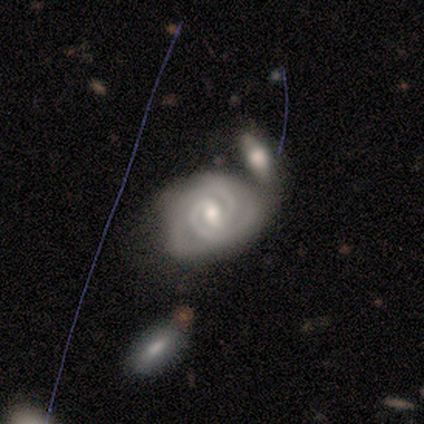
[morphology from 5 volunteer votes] Smooth or featured? featured or disk (100%)
Edge-on disk? no (80%)
Bar? weak (50%, tied with no)
Spiral arms? yes (75%)
Spiral winding? tight (67%)
Spiral arm count? 2 (100%)
Bulge size? moderate (50%, tied with small)
Merging? merger (80%)